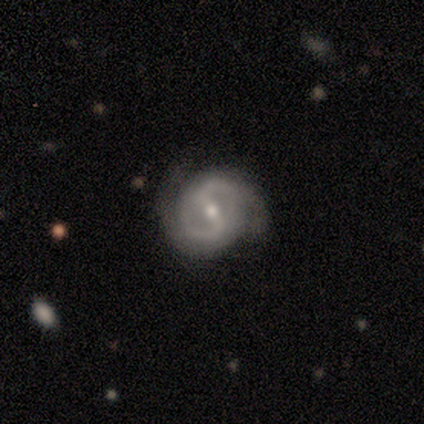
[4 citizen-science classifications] Volunteers were most divided on "spiral winding": medium: 67%, tight: 33%, loose: 0%. More confident: smooth or featured — featured or disk (100%); edge-on disk — no (100%); spiral arm count — 2 (100%); bar — strong (75%); spiral arms — yes (75%); bulge size — moderate (75%); merging — none (75%).